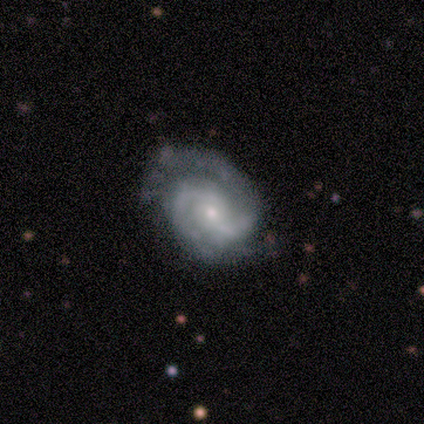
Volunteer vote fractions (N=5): Q: Smooth or featured?
A: featured or disk (100%)
Q: Edge-on disk?
A: no (80%); runner-up: yes (20%)
Q: Bar?
A: weak (50%); tied with: no (50%)
Q: Spiral arms?
A: yes (75%); runner-up: no (25%)
Q: Spiral winding?
A: medium (67%); runner-up: tight (33%)
Q: Spiral arm count?
A: 2 (100%)
Q: Bulge size?
A: moderate (50%); tied with: small (50%)
Q: Merging?
A: minor disturbance (60%); runner-up: none (40%)